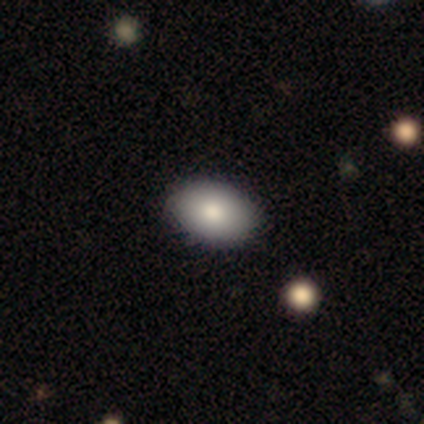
Morphology: type=smooth (84%); roundness=in between (97%); merging=none (86%).